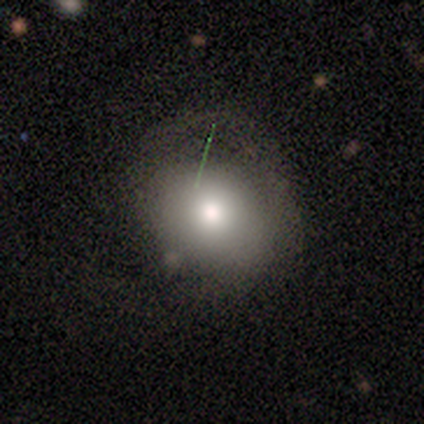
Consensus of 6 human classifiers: Morphology: type=smooth (50%); roundness=in between (67%); merging=minor disturbance (50%).